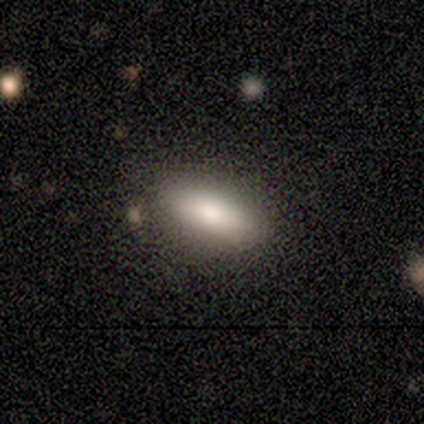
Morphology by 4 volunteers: A smooth galaxy with no disk features (75%) that is in between round and cigar-shaped (100%).

Vote fractions:
- Smooth or featured? smooth: 75% / star or artifact: 25% / featured or disk: 0%
- How rounded? in between: 100% / round: 0% / cigar-shaped: 0%
- Merging? none: 100% / minor disturbance: 0% / major disturbance: 0% / merger: 0%